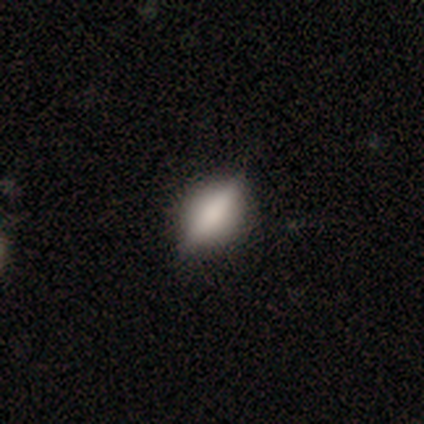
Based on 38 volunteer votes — Overall: featured or disk (50%; smooth 42%). Edge-on disk: yes (84%). Edge-on bulge: rounded (69%). Merging: none (86%).